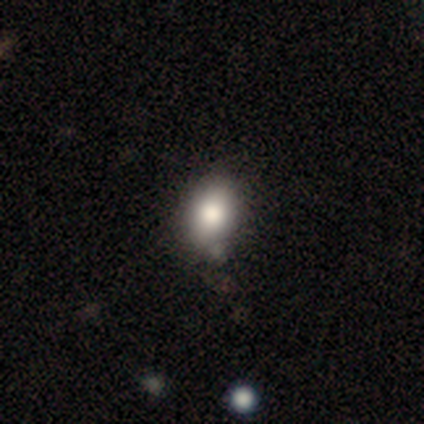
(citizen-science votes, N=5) A smooth galaxy with no disk features (100%) that is round (60%).

Vote fractions:
- Smooth or featured? smooth: 100% / featured or disk: 0% / star or artifact: 0%
- How rounded? round: 60% / in between: 40% / cigar-shaped: 0%
- Merging? none: 60% / minor disturbance: 20% / merger: 20% / major disturbance: 0%